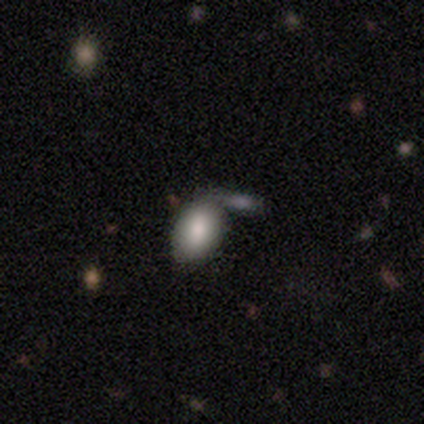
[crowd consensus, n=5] Smooth or featured?
  - smooth: 80% *
  - featured or disk: 20%
  - star or artifact: 0%
How rounded?
  - in between: 75% *
  - round: 25%
  - cigar-shaped: 0%
Merging?
  - none: 60% *
  - minor disturbance: 20%
  - major disturbance: 20%
  - merger: 0%